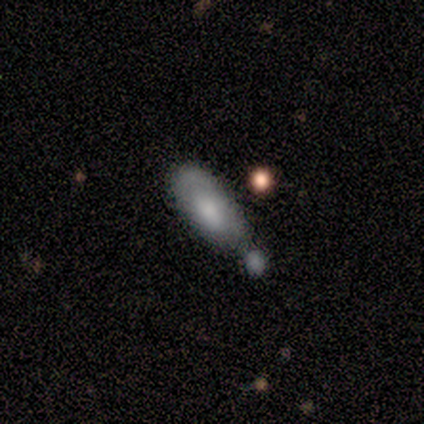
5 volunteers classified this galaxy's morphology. smooth-or-featured: smooth: 60% | featured or disk: 40% | star or artifact: 0%
  how-rounded: in between: 67% | cigar-shaped: 33% | round: 0%
  merging: merger: 60% | minor disturbance: 20% | major disturbance: 20% | none: 0%